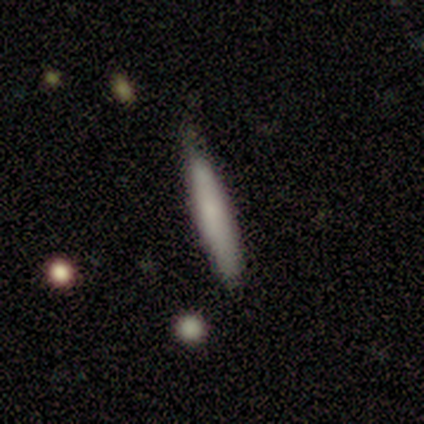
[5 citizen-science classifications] Smooth or featured? smooth (100%)
How rounded? cigar-shaped (100%)
Merging? none (80%)